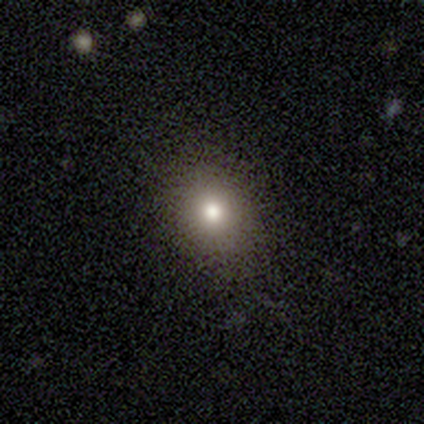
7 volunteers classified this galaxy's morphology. smooth-or-featured: smooth: 71% | star or artifact: 29% | featured or disk: 0%
  how-rounded: in between: 60% | round: 40% | cigar-shaped: 0%
  merging: none: 100% | minor disturbance: 0% | major disturbance: 0% | merger: 0%